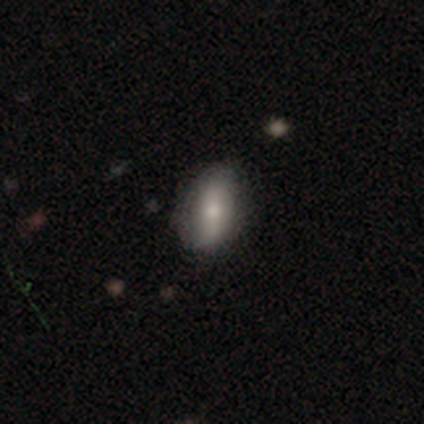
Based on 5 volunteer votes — smooth 60%, star or artifact 40%, featured or disk 0%. Down the decision tree: how rounded — in between (100%); merging — none (67%).